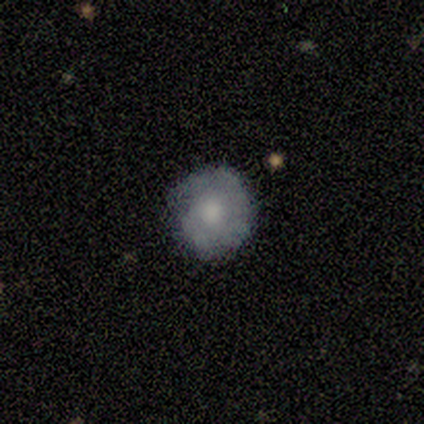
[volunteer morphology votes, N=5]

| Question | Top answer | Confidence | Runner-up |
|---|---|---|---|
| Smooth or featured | featured or disk | 60% | smooth (40%) |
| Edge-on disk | no | 100% | — |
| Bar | no | 67% | weak (33%) |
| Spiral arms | no | 67% | yes (33%) |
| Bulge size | small | 67% | moderate (33%) |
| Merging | none | 60% | minor disturbance (20%) |